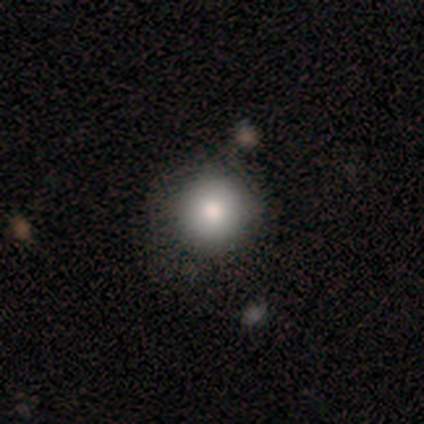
Morphology: type=smooth (100%); roundness=round (100%); merging=none (60%).